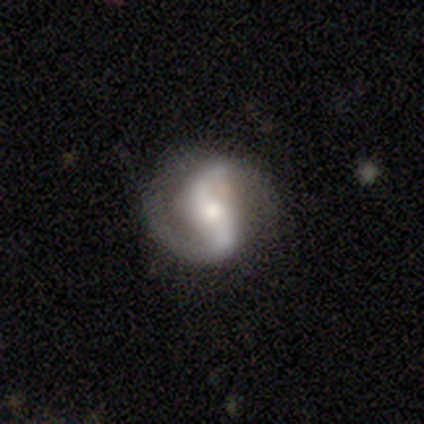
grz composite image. It shows a featured or disk galaxy (85%) with no bar (50%), 2 (92%) medium (47%) spiral arms (95%) and a moderate central bulge (50%). Merging: none (77%).